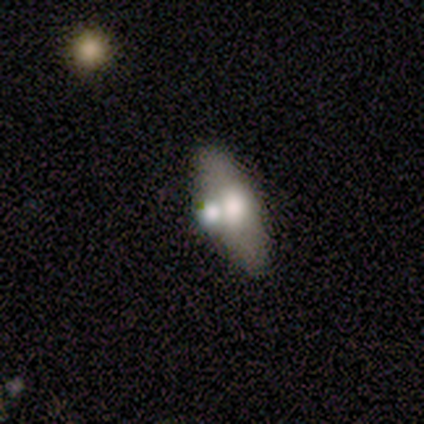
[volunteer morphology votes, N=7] Q: Smooth or featured?
A: featured or disk (57%); runner-up: smooth (43%)
Q: Edge-on disk?
A: yes (100%)
Q: Edge-on bulge?
A: rounded (100%)
Q: Merging?
A: merger (43%); runner-up: none (29%)